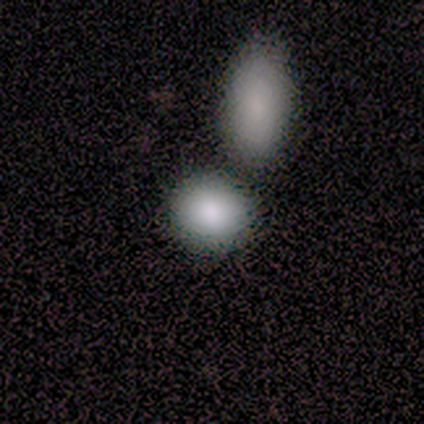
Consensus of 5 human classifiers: Volunteers were most divided on "merging": merger: 60%, none: 40%, minor disturbance: 0%, major disturbance: 0%. More confident: smooth or featured — smooth (100%); how rounded — round (80%).